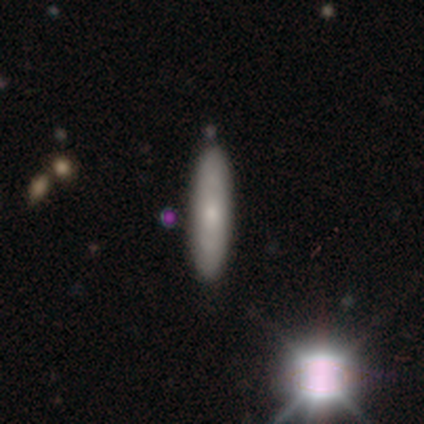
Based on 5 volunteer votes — This is likely a featured or disk galaxy (60%). It is likely viewed edge-on (67%). Edge-on bulge: possibly none (50%, tied with rounded). Merging: clearly none (80%).